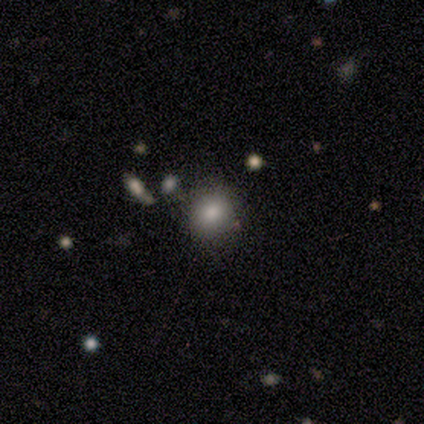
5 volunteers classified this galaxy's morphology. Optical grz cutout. It shows a smooth galaxy with no disk features (80%) that is round (75%). Merging: none (75%).